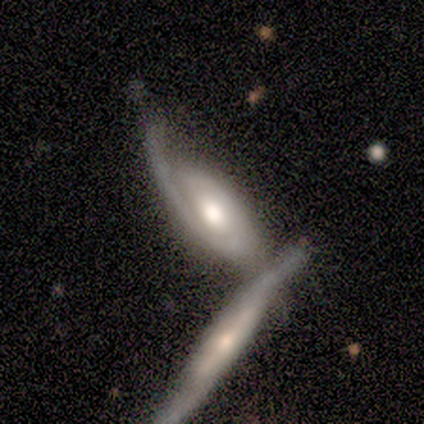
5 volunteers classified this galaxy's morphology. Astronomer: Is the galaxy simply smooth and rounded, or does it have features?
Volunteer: featured or disk — 80%.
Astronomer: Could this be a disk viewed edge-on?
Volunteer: no — 75%.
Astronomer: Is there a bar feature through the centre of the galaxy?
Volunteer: no — 67%.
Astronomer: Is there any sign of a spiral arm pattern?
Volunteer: yes — 100%.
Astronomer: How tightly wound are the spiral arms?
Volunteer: medium — 100%.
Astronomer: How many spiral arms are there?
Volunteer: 2 — 67%.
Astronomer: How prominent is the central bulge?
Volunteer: moderate — 67%.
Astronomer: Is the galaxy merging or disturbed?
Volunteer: merger — 80%.